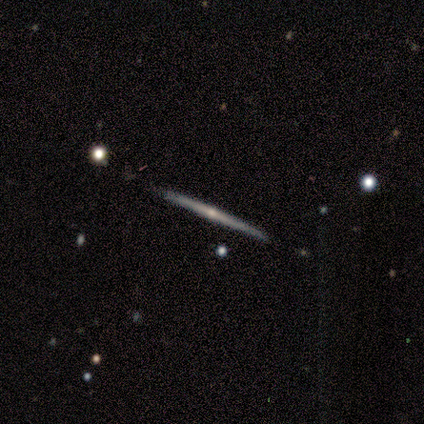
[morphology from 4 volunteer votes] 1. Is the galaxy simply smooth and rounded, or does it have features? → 100% featured or disk, 0% smooth, 0% star or artifact.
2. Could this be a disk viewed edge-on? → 100% yes, 0% no.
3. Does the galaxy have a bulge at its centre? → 75% rounded, 25% none, 0% boxy.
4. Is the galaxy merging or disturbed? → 100% none, 0% minor disturbance, 0% major disturbance, 0% merger.